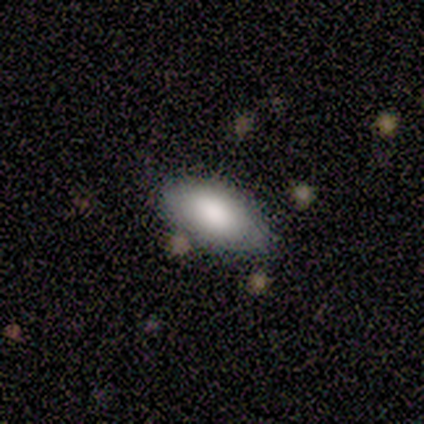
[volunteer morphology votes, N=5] A featured or disk galaxy (80%) with no bar (100%), no spiral arms (100%) and a large central bulge (67%).

Vote fractions:
- Smooth or featured? featured or disk: 80% / smooth: 20% / star or artifact: 0%
- Edge-on disk? no: 75% / yes: 25%
- Bar? no: 100% / strong: 0% / weak: 0%
- Spiral arms? no: 100% / yes: 0%
- Bulge size? large: 67% / dominant: 33% / moderate: 0% / small: 0% / none: 0%
- Merging? none: 100% / minor disturbance: 0% / major disturbance: 0% / merger: 0%